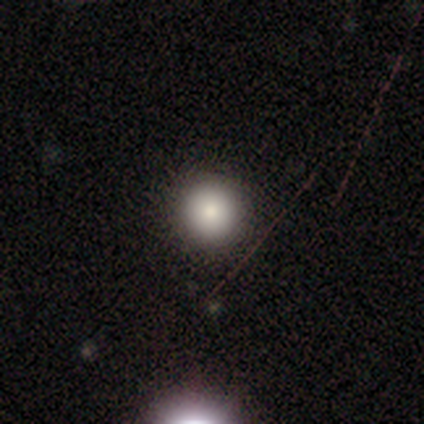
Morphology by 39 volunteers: A smooth galaxy with no disk features (95%) that is round (100%). Merging: none (79%).